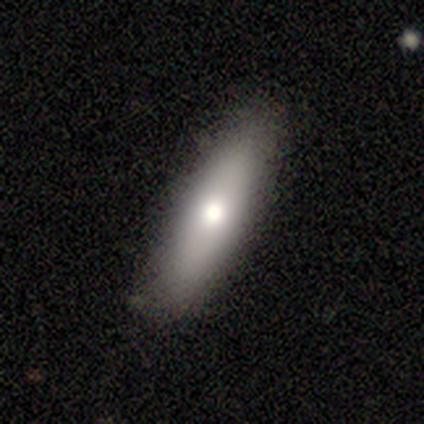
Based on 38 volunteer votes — smooth 79%, featured or disk 18%, star or artifact 3%. Down the decision tree: how rounded — cigar-shaped (77%); merging — none (84%).